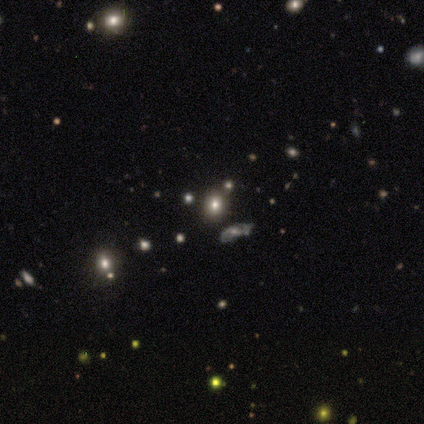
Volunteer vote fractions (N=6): smooth 67%, star or artifact 33%, featured or disk 0%. Down the decision tree: how rounded — in between (100%); merging — none (75%).